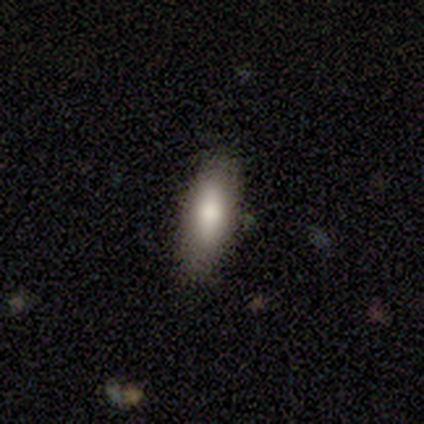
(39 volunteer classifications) Smooth or featured?
  - smooth: 87% *
  - featured or disk: 8%
  - star or artifact: 5%
How rounded?
  - in between: 85% *
  - cigar-shaped: 15%
  - round: 0%
Merging?
  - none: 76% *
  - minor disturbance: 24%
  - major disturbance: 0%
  - merger: 0%